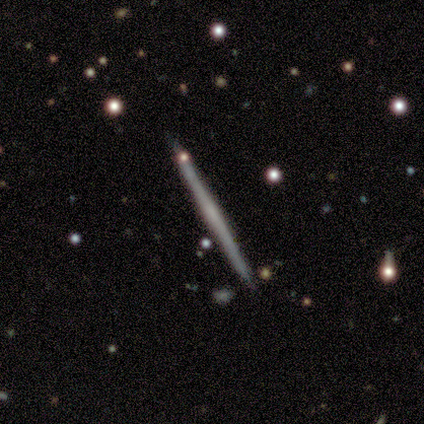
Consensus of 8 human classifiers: A featured or disk galaxy (75%) viewed edge-on (100%) with a rounded central bulge (67%). Merging: none (88%).